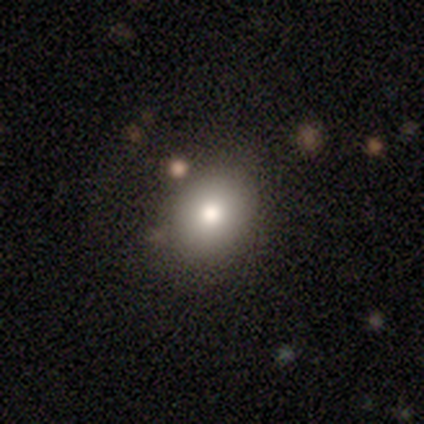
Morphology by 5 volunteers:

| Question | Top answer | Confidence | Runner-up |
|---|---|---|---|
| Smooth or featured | smooth | 80% | star or artifact (20%) |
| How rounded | round | 50% | tied: in between (50%) |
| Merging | none | 100% | — |